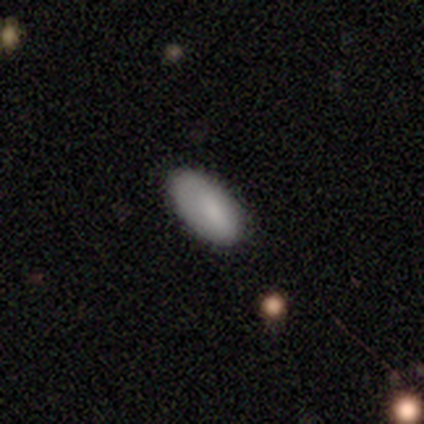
A smooth galaxy with no disk features (100%) that is in between round and cigar-shaped (100%).

Vote fractions:
- Smooth or featured? smooth: 100% / featured or disk: 0% / star or artifact: 0%
- How rounded? in between: 100% / round: 0% / cigar-shaped: 0%
- Merging? none: 75% / minor disturbance: 25% / major disturbance: 0% / merger: 0%